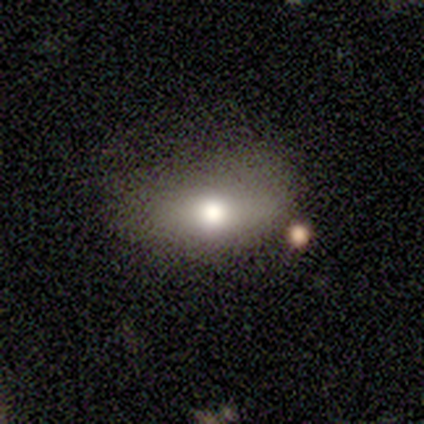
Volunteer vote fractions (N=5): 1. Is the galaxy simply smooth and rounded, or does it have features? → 40% smooth (tied), 40% featured or disk (tied), 20% star or artifact.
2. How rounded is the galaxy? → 100% in between, 0% round, 0% cigar-shaped.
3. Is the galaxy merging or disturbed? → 75% none, 25% minor disturbance, 0% major disturbance, 0% merger.